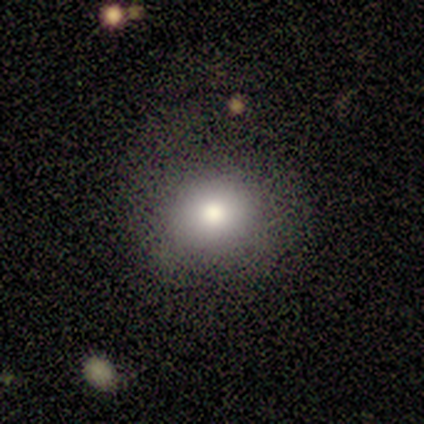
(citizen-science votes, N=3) A smooth galaxy with no disk features (100%) that is round (100%). Merging: none (100%).